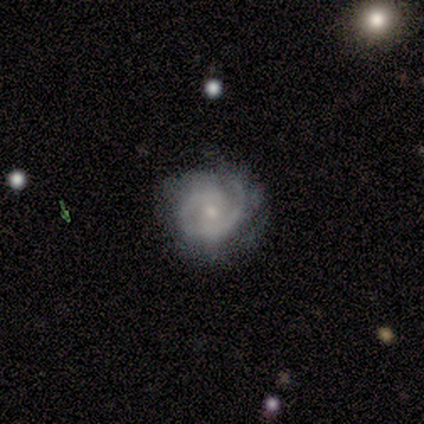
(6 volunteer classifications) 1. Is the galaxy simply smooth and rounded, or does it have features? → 83% featured or disk, 17% smooth, 0% star or artifact.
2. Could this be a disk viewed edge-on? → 100% no, 0% yes.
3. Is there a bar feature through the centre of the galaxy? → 80% no, 20% strong, 0% weak.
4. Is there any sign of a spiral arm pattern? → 100% yes, 0% no.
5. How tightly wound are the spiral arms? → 60% tight, 20% medium, 20% loose.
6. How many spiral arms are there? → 40% 2 (tied), 40% can't tell (tied), 20% 1, 0% 3, 0% 4, 0% more than 4.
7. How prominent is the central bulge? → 80% small, 20% moderate, 0% dominant, 0% large, 0% none.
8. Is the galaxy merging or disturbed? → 67% none, 33% minor disturbance, 0% major disturbance, 0% merger.